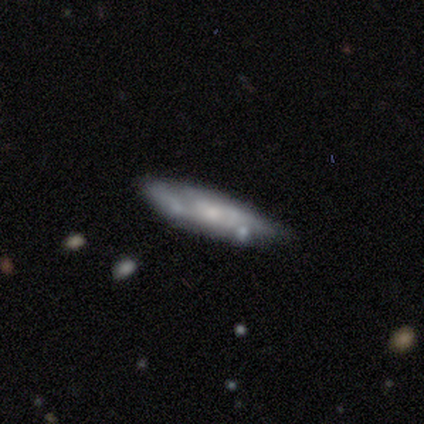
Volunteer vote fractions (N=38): Overall: featured or disk (76%). Edge-on disk: no (66%; yes 34%). Bar: no (84%). Spiral arms: yes (58%; no 42%). Spiral arm count: can't tell (73%). Spiral winding: tight (45%; loose 36%). Bulge size: small (53%; none 32%). Merging: none (57%; minor disturbance 35%).